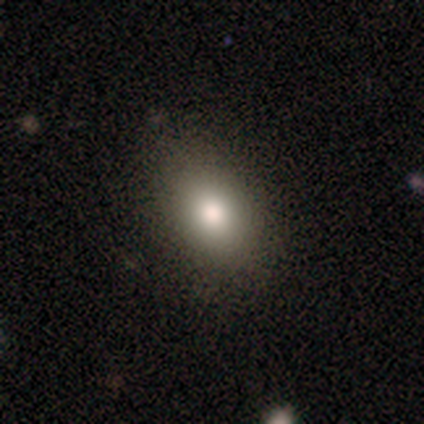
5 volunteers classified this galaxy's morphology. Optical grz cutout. It shows a smooth galaxy with no disk features (80%) that is in between round and cigar-shaped (75%). Merging: none (100%).